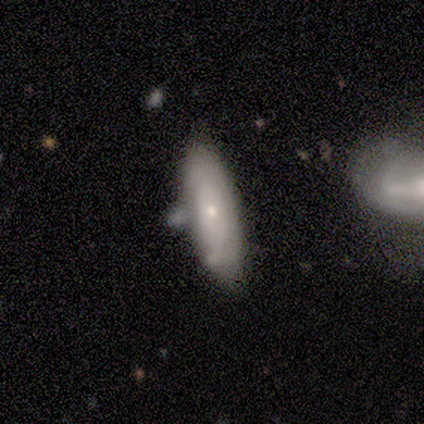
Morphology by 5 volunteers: Volunteers were most divided on "spiral arms" (2-way tie): yes: 50%, no: 50%; "bulge size" (2-way tie): moderate: 50%, small: 50%, dominant: 0%, large: 0%, none: 0%. More confident: bar — no (100%); spiral winding — tight (100%); spiral arm count — can't tell (100%); edge-on disk — no (67%); smooth or featured — featured or disk (60%); merging — none (60%).